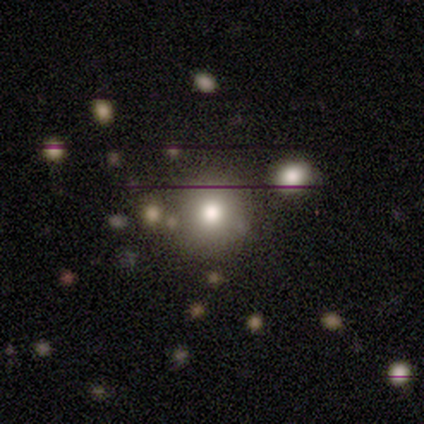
Morphology: type=smooth (67%); roundness=round (100%); merging=none (100%).